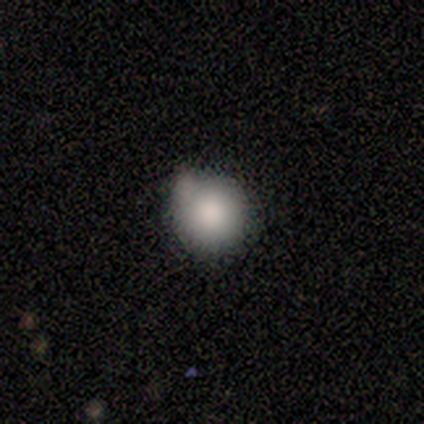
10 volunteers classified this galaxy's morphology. A smooth galaxy with no disk features (80%) that is round (88%). Merging: minor disturbance (56%).